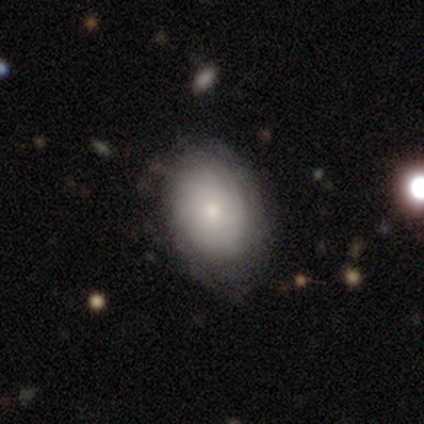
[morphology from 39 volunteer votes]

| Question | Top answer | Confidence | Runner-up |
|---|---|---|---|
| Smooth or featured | featured or disk | 59% | smooth (36%) |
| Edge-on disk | no | 96% | yes (4%) |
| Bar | no | 95% | weak (5%) |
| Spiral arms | yes | 68% | no (32%) |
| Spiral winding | tight | 67% | loose (20%) |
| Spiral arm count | can't tell | 73% | more than 4 (13%) |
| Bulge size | small | 77% | moderate (18%) |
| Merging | none | 70% | minor disturbance (19%) |